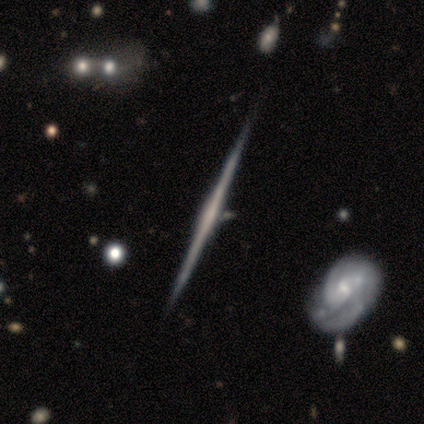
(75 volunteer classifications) smooth_or_featured: featured or disk (p=0.88) [alt: smooth p=0.08]
disk_edge_on: yes (p=1.00)
edge_on_bulge: none (p=0.56) [alt: rounded p=0.33]
merging: none (p=0.82) [alt: minor disturbance p=0.12]